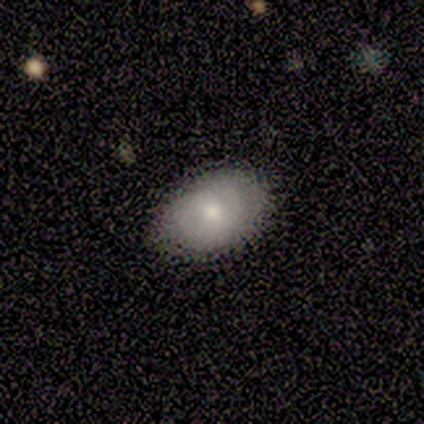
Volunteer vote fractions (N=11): Morphology: type=smooth (100%); roundness=in between (100%); merging=none (82%).